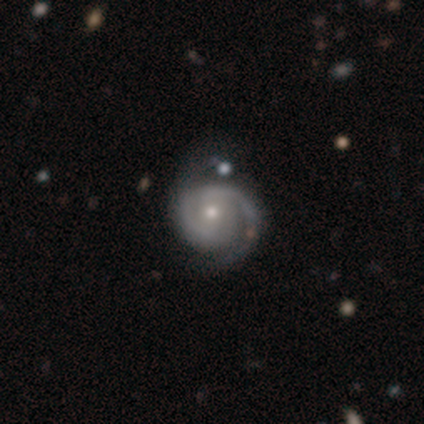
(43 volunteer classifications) Morphology: type=featured or disk (91%); edge-on=no (100%); bar=no (54%); spiral arms=yes (100%); winding=tight (62%); arm count=2 (69%); bulge=moderate (51%); merging=none (40%).